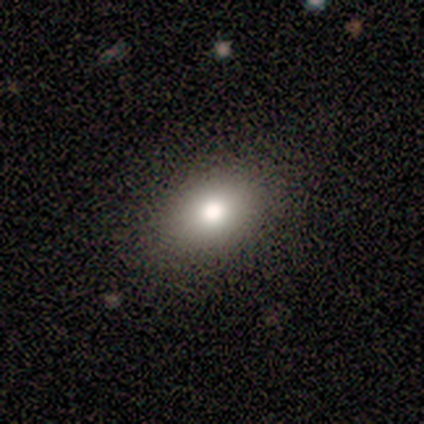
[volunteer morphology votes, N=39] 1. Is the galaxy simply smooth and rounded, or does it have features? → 97% smooth, 3% featured or disk, 0% star or artifact.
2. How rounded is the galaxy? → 89% in between, 11% round, 0% cigar-shaped.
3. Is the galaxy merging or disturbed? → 87% none, 13% minor disturbance, 0% major disturbance, 0% merger.